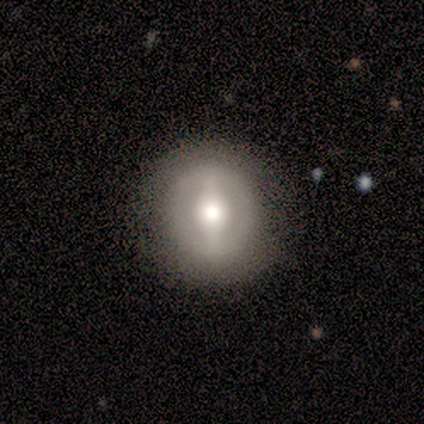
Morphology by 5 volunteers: smooth-or-featured: featured or disk: 80% | smooth: 20% | star or artifact: 0%
  disk-edge-on: no: 100% | yes: 0%
    bar: strong: 100% | weak: 0% | no: 0%
    has-spiral-arms: no: 75% | yes: 25%
    bulge-size: moderate: 75% | large: 25% | dominant: 0% | small: 0% | none: 0%
  merging: none: 100% | minor disturbance: 0% | major disturbance: 0% | merger: 0%